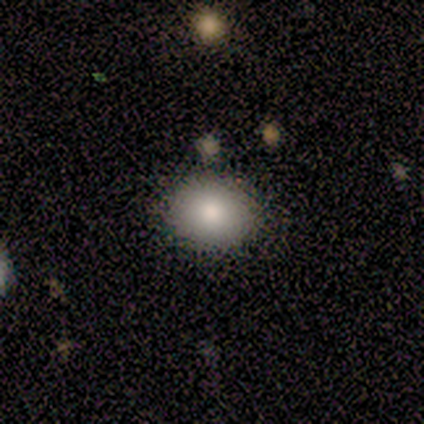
Smooth or featured? 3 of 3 (100%) said smooth. How rounded? 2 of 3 (67%) said round. Merging? 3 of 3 (100%) said none.